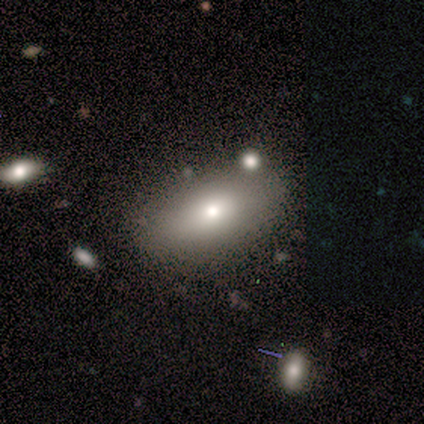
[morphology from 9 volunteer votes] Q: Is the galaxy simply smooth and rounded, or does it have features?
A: smooth — 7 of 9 (78%).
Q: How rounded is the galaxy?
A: in between — 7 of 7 (100%).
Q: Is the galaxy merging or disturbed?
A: none — 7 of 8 (88%).